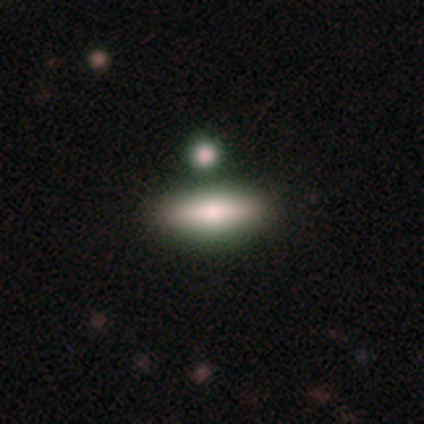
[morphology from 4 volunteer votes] Q: Smooth or featured?
A: smooth (75%); runner-up: featured or disk (25%)
Q: How rounded?
A: in between (67%); runner-up: cigar-shaped (33%)
Q: Merging?
A: merger (75%); runner-up: none (25%)